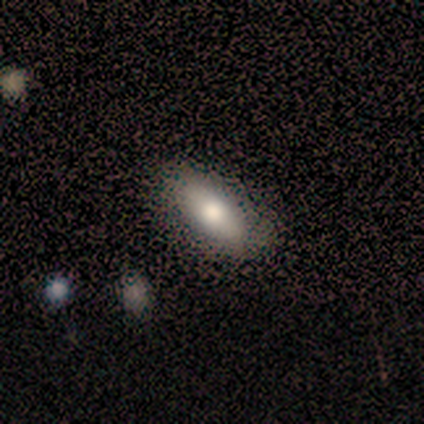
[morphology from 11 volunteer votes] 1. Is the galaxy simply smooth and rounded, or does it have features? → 55% featured or disk, 36% smooth, 9% star or artifact.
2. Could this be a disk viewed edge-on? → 83% no, 17% yes.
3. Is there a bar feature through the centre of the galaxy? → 60% no, 40% strong, 0% weak.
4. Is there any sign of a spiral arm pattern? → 60% no, 40% yes.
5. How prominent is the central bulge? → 60% moderate, 40% small, 0% dominant, 0% large, 0% none.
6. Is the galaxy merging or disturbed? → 100% none, 0% minor disturbance, 0% major disturbance, 0% merger.